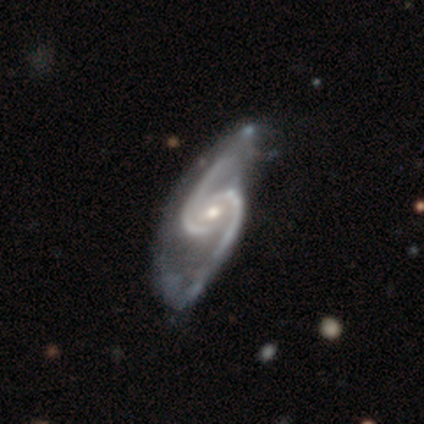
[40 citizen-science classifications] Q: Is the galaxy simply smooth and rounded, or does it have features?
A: featured or disk — 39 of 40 (98%).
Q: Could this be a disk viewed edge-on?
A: no — 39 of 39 (100%).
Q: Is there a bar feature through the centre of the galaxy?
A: no — 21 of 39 (54%).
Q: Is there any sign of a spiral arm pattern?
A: yes — 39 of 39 (100%).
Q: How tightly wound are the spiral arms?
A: loose — 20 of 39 (51%).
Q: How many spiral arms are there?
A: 2 — 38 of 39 (97%).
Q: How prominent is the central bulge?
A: moderate — 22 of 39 (56%).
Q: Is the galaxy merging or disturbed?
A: none — 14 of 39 (36%).